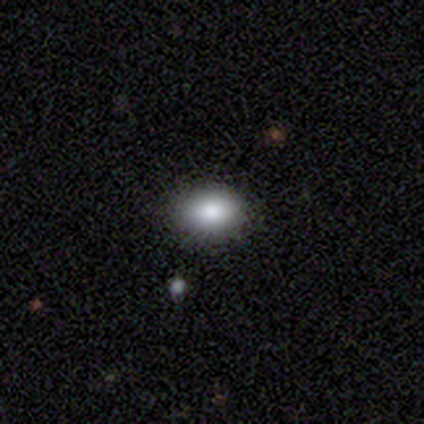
This is clearly a smooth galaxy (80%). How rounded: clearly in between (100%). Merging: likely none (75%).